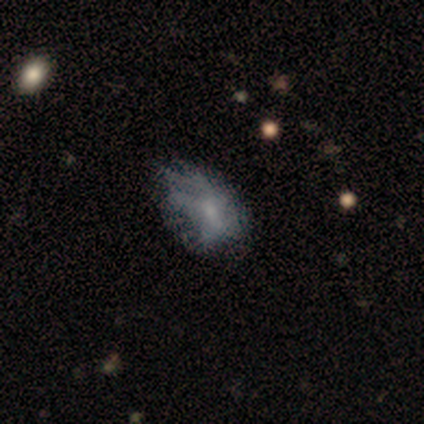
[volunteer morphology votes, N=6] smooth 67%, featured or disk 33%, star or artifact 0%. Down the decision tree: how rounded — in between (50%); merging — none (50%).